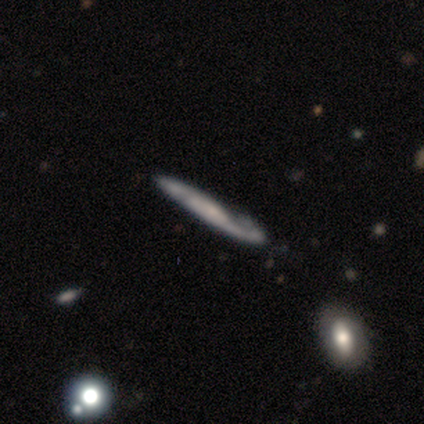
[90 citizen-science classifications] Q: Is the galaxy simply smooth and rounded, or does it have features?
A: featured or disk — 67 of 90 (74%).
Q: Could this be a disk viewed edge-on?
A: yes — 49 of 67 (73%).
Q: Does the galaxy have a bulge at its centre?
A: none — 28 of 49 (57%).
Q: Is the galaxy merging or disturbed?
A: none — 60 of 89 (67%).